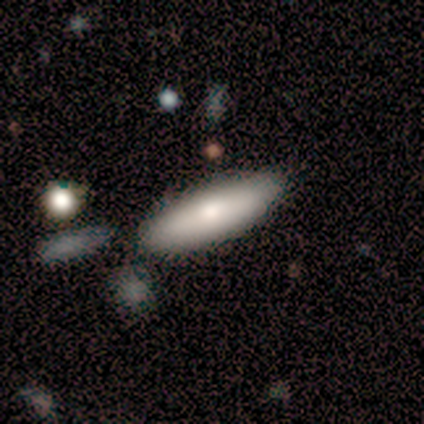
Smooth or featured? 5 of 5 (100%) said smooth. How rounded? 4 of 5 (80%) said cigar-shaped. Merging? 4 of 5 (80%) said none.